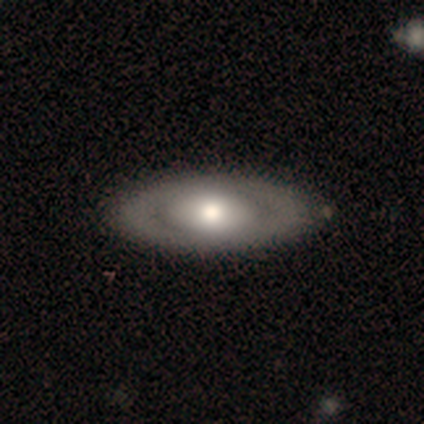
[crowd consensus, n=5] Smooth or featured? 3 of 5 (60%) said featured or disk. Edge-on disk? 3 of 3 (100%) said no. Bar? 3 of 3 (100%) said no. Spiral arms? 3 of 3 (100%) said no. Bulge size? 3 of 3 (100%) said moderate. Merging? 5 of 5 (100%) said none.